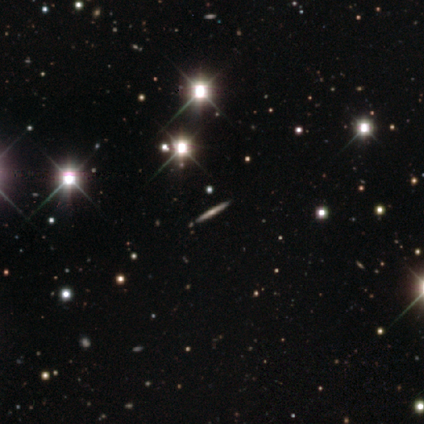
Volunteers were most divided on "edge-on bulge": rounded: 61%, none: 22%, boxy: 17%. More confident: merging — none (94%); edge-on disk — yes (92%); smooth or featured — featured or disk (64%).